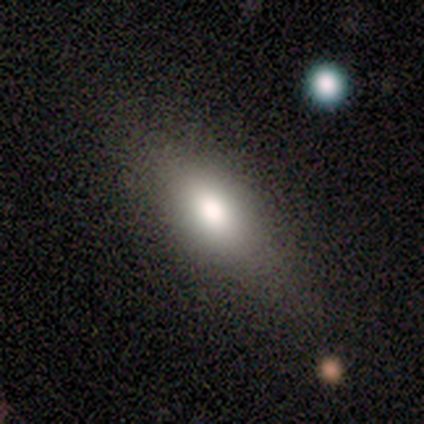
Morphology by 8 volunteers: smooth-or-featured: smooth: 75% | featured or disk: 12% | star or artifact: 12%
  how-rounded: in between: 83% | cigar-shaped: 17% | round: 0%
  merging: none: 71% | minor disturbance: 29% | major disturbance: 0% | merger: 0%